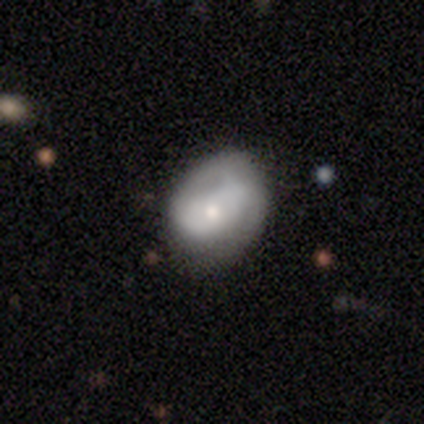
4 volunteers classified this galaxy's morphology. Smooth or featured? featured or disk (75%)
Edge-on disk? no (100%)
Bar? no (67%)
Spiral arms? yes (100%)
Spiral winding? tight (33%, tied with medium and loose)
Spiral arm count? 2 (67%)
Bulge size? moderate (67%)
Merging? none (75%)